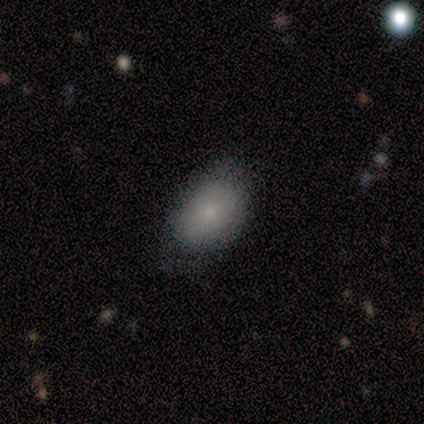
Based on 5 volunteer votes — Smooth or featured?
  - smooth: 100% *
  - featured or disk: 0%
  - star or artifact: 0%
How rounded?
  - in between: 100% *
  - round: 0%
  - cigar-shaped: 0%
Merging?
  - none: 60% *
  - minor disturbance: 40%
  - major disturbance: 0%
  - merger: 0%